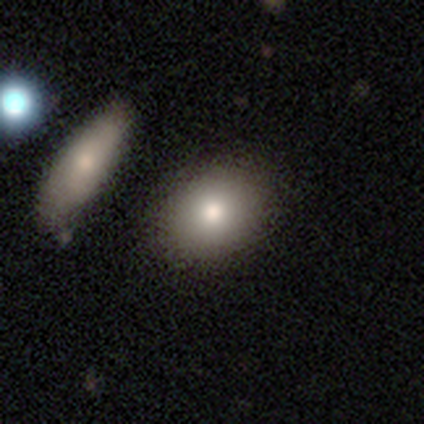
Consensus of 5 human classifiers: Overall: smooth (80%). How rounded: round (100%). Merging: none (80%).